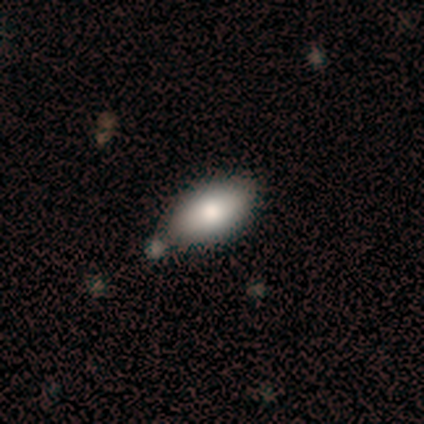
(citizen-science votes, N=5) smooth-or-featured: smooth: 100% | featured or disk: 0% | star or artifact: 0%
  how-rounded: in between: 100% | round: 0% | cigar-shaped: 0%
  merging: none: 80% | major disturbance: 20% | minor disturbance: 0% | merger: 0%